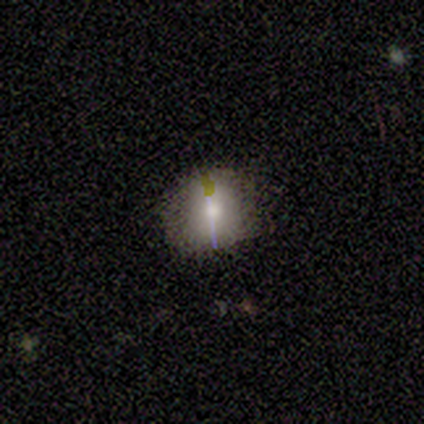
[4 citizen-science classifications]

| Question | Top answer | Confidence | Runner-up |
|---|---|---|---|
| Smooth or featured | smooth | 100% | — |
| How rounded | round | 75% | in between (25%) |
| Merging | none | 100% | — |